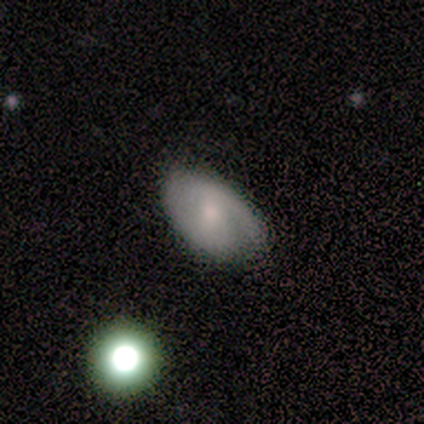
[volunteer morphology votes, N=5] Smooth or featured: smooth — 40% (tied with featured or disk — 40%)
How rounded: in between — 100%
Merging: none — 75% (minor disturbance — 25%)